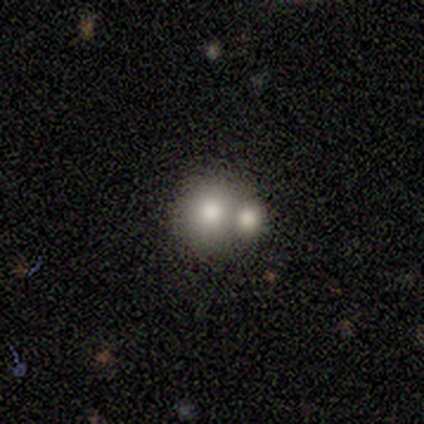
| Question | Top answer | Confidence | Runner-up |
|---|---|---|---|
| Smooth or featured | smooth | 33% | tied: featured or disk (33%), star or artifact (33%) |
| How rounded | round | 100% | — |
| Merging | merger | 100% | — |